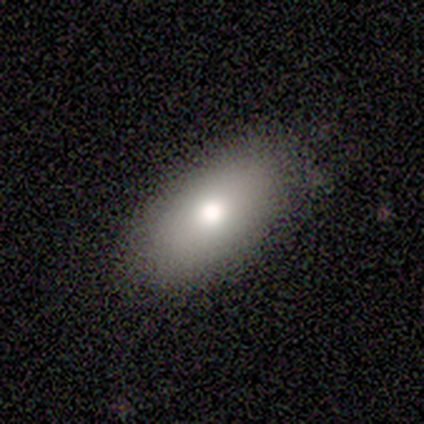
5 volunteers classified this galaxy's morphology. smooth 100%, featured or disk 0%, star or artifact 0%. Down the decision tree: how rounded — in between (100%); merging — none (100%).